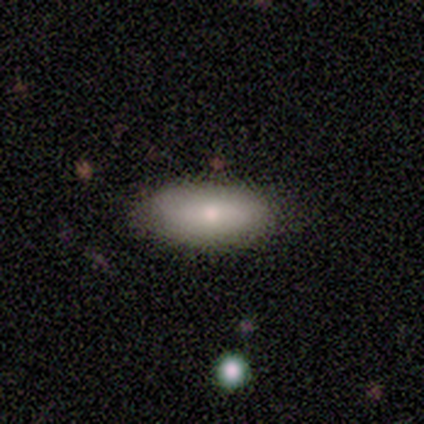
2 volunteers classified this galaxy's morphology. Volunteers were most divided on "how rounded" (2-way tie): in between: 50%, cigar-shaped: 50%, round: 0%. More confident: smooth or featured — smooth (100%); merging — none (100%).